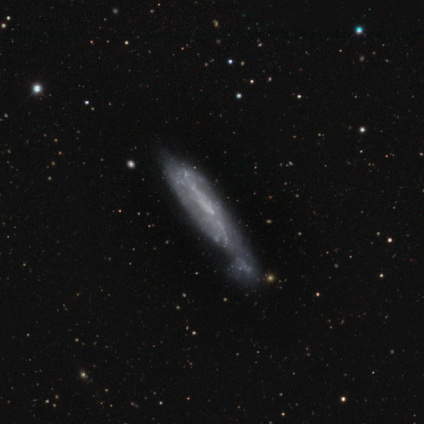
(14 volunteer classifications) Q: Smooth or featured?
A: featured or disk (64%); runner-up: smooth (29%)
Q: Edge-on disk?
A: no (56%); runner-up: yes (44%)
Q: Bar?
A: no (60%); runner-up: weak (40%)
Q: Spiral arms?
A: no (80%); runner-up: yes (20%)
Q: Bulge size?
A: none (80%); runner-up: small (20%)
Q: Merging?
A: minor disturbance (31%); tied with: major disturbance (31%)